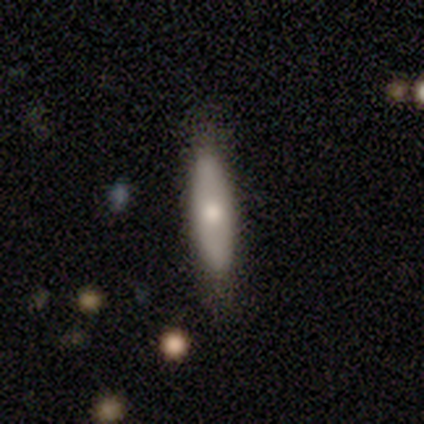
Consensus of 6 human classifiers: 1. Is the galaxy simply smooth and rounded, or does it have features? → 50% smooth, 33% featured or disk, 17% star or artifact.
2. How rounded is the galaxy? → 100% cigar-shaped, 0% round, 0% in between.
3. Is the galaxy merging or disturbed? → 60% none, 40% minor disturbance, 0% major disturbance, 0% merger.